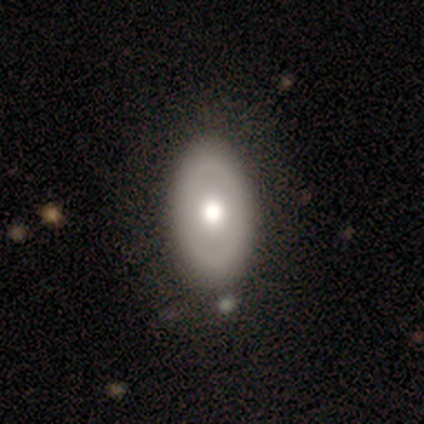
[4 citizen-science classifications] This appears to be a featured or disk galaxy (75%) with no bar (100%), no spiral arms (100%) and a moderate central bulge (100%). Merging: none (100%).